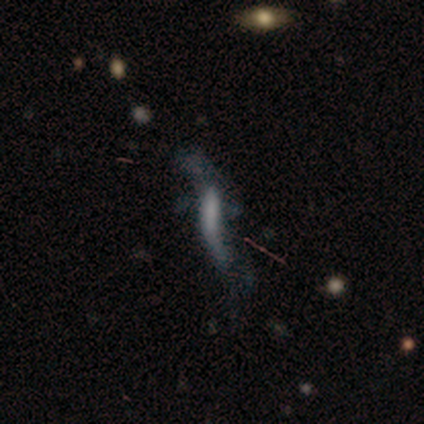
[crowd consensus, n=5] smooth_or_featured: smooth (p=0.40) [tied with: featured or disk p=0.40]
how_rounded: cigar-shaped (p=1.00)
merging: major disturbance (p=1.00)